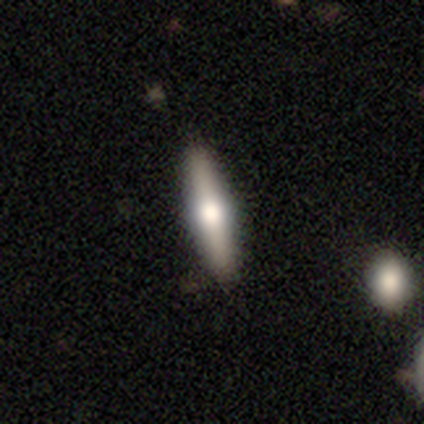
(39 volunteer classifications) Q: Smooth or featured?
A: featured or disk (54%); runner-up: smooth (41%)
Q: Edge-on disk?
A: yes (95%); runner-up: no (5%)
Q: Edge-on bulge?
A: rounded (90%); runner-up: boxy (5%)
Q: Merging?
A: none (95%); runner-up: minor disturbance (5%)